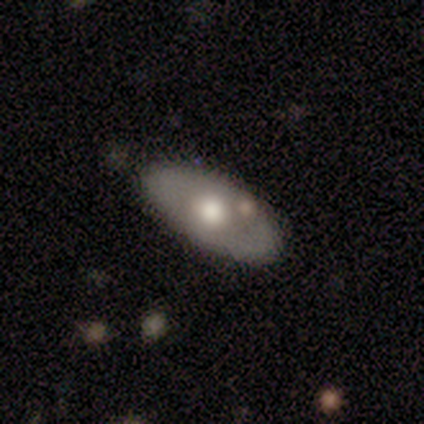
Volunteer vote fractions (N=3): smooth 67%, featured or disk 33%, star or artifact 0%. Down the decision tree: how rounded — in between (100%); merging — none (33%, tied with minor disturbance and merger).